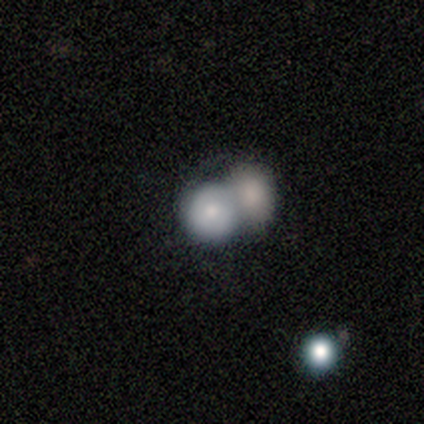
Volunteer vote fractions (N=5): Volunteers were most divided on "smooth or featured": smooth: 80%, featured or disk: 20%, star or artifact: 0%. More confident: how rounded — round (100%); merging — merger (80%).